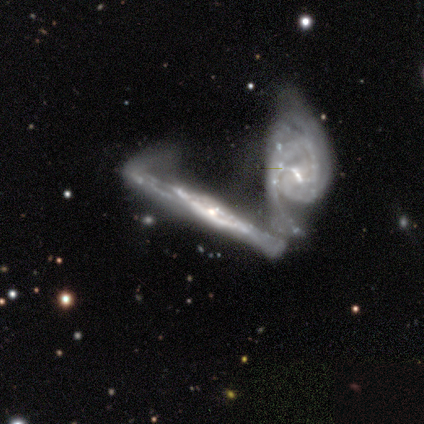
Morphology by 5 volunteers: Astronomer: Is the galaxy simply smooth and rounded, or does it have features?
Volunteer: featured or disk — 100%.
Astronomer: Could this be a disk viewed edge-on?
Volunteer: yes — 80%.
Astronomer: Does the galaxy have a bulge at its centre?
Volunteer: rounded — 75%.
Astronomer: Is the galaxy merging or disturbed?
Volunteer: merger — 100%.